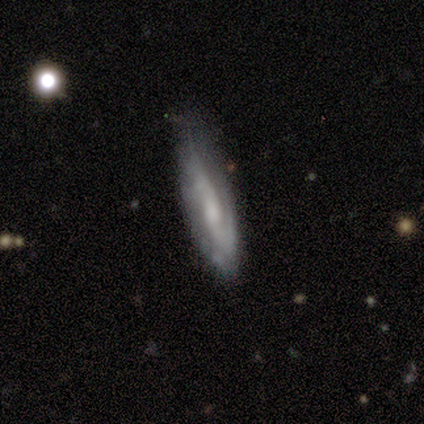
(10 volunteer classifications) Smooth or featured?
  - featured or disk: 80% *
  - smooth: 20%
  - star or artifact: 0%
Edge-on disk?
  - no: 62% *
  - yes: 38%
Bar?
  - weak: 40% * (tied)
  - no: 40% * (tied)
  - strong: 20%
Spiral arms?
  - yes: 80% *
  - no: 20%
Spiral winding?
  - tight: 50% *
  - medium: 25%
  - loose: 25%
Spiral arm count?
  - 2: 50% *
  - 1: 25%
  - can't tell: 25%
  - 3: 0%
  - 4: 0%
  - more than 4: 0%
Bulge size?
  - small: 60% *
  - moderate: 20%
  - none: 20%
  - dominant: 0%
  - large: 0%
Merging?
  - none: 60% *
  - minor disturbance: 40%
  - major disturbance: 0%
  - merger: 0%